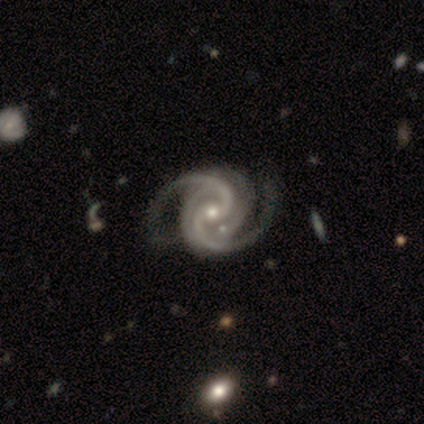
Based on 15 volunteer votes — A featured or disk galaxy (100%) with no bar (53%), 2 (60%) tight (47%, tied with medium) spiral arms (100%) and a moderate central bulge (60%).

Vote fractions:
- Smooth or featured? featured or disk: 100% / smooth: 0% / star or artifact: 0%
- Edge-on disk? no: 100% / yes: 0%
- Bar? no: 53% / weak: 40% / strong: 7%
- Spiral arms? yes: 100% / no: 0%
- Spiral winding? tight: 47% (tied) / medium: 47% (tied) / loose: 7%
- Spiral arm count? 2: 60% / 4: 20% / 1: 7% / 3: 7% / can't tell: 7% / more than 4: 0%
- Bulge size? moderate: 60% / small: 33% / large: 7% / dominant: 0% / none: 0%
- Merging? none: 60% / minor disturbance: 27% / merger: 13% / major disturbance: 0%